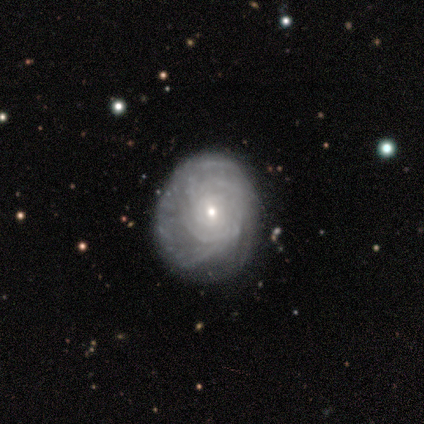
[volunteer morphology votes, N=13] Volunteers were most divided on "spiral arm count": can't tell: 44%, 3: 22%, more than 4: 22%, 2: 11%, 1: 0%, 4: 0%. More confident: smooth or featured — featured or disk (92%); edge-on disk — no (92%); spiral arms — yes (82%); spiral winding — tight (78%); bar — no (64%); bulge size — small (64%); merging — none (54%).